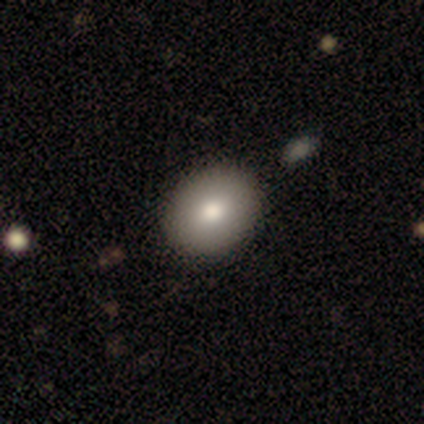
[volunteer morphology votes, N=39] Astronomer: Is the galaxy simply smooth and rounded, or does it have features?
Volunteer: smooth — 82%.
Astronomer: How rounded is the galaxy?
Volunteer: in between — 59% (runner-up: round, 41%).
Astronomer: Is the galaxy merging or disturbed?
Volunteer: none — 62%.